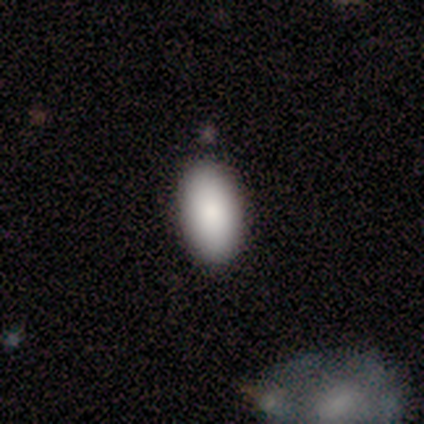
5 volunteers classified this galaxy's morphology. This is clearly a smooth galaxy (100%). How rounded: clearly in between (100%). Merging: clearly none (100%).